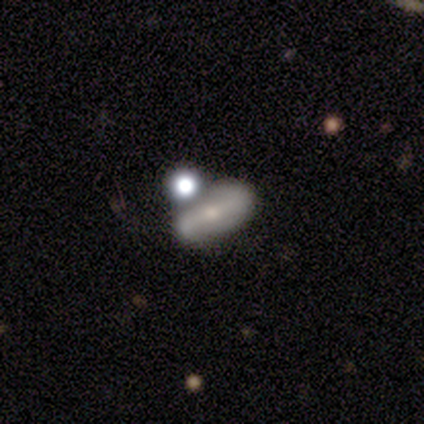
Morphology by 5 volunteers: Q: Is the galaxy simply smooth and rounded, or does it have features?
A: featured or disk — 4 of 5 (80%).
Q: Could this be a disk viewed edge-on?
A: no — 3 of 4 (75%).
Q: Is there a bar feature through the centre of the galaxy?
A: strong — 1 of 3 (33%, tied with weak and no).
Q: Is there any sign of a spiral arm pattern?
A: yes — 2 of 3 (67%).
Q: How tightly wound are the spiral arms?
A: loose — 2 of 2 (100%).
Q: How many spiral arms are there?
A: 2 — 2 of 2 (100%).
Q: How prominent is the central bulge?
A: small — 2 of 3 (67%).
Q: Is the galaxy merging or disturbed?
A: none — 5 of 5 (100%).